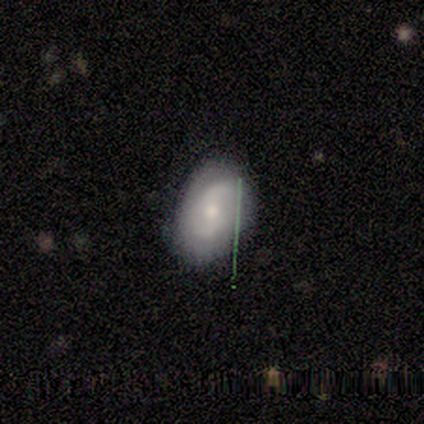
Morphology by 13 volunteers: This is possibly a featured or disk galaxy (54%). It is clearly not viewed edge-on (86%). Bar: possibly no (50%). Spiral arm pattern: clearly yes (83%). Spiral arm count: likely 2 (60%). Spiral winding: marginally tight (40%, tied with medium). Central bulge: possibly moderate (50%, tied with small). Merging: likely none (73%).